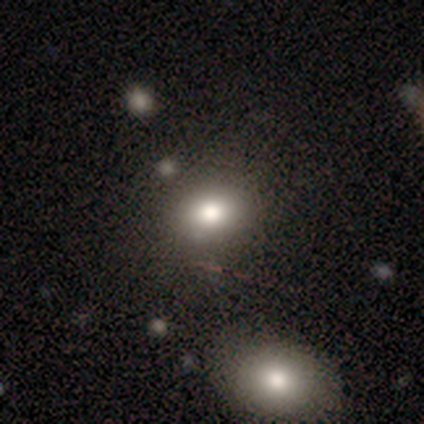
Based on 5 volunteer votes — Overall: smooth (80%). How rounded: in between (75%). Merging: none (80%).